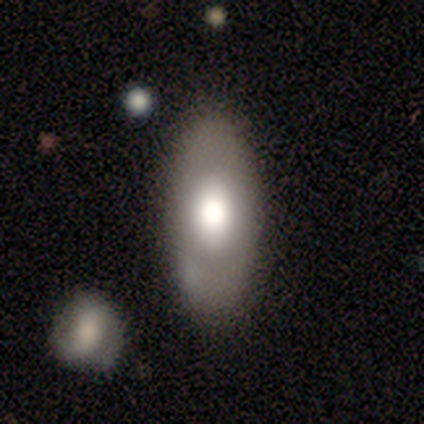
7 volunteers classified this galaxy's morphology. A smooth galaxy with no disk features (57%) that is in between round and cigar-shaped (100%). Merging: none (86%).